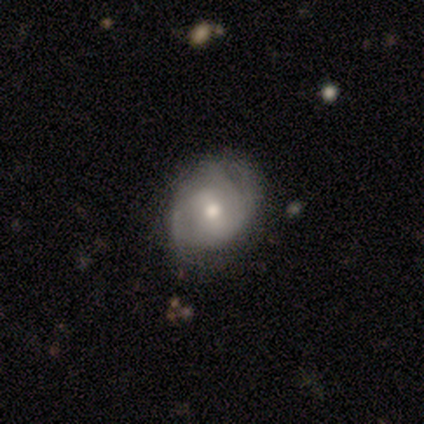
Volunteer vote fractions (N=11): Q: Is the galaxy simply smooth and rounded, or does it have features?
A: featured or disk — 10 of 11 (91%).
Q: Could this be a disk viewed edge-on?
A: no — 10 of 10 (100%).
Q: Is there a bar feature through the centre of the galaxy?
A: no — 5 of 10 (50%).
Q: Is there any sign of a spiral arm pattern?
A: yes — 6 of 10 (60%).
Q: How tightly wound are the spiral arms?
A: tight — 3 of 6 (50%, tied with medium).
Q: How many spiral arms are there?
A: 2 — 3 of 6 (50%, tied with can't tell).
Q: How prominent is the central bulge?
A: moderate — 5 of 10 (50%).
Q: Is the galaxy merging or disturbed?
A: none — 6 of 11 (55%).